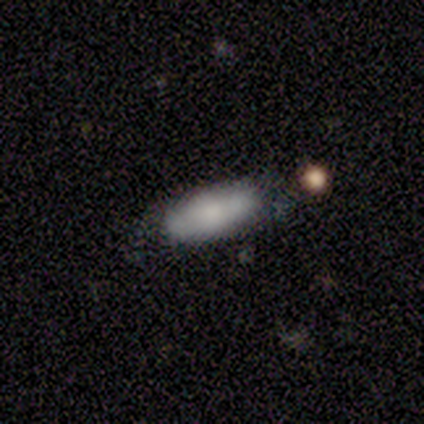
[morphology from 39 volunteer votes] A smooth galaxy with no disk features (64%) that is in between round and cigar-shaped (72%). Merging: none (53%).